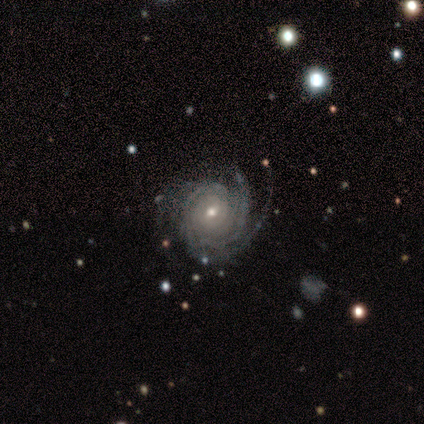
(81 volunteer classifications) Overall: featured or disk (94%). Edge-on disk: no (100%). Bar: no (63%; weak 29%). Spiral arms: yes (100%). Spiral arm count: 3 (30%; 4 20%). Spiral winding: tight (74%). Bulge size: moderate (53%; small 46%). Merging: none (69%).